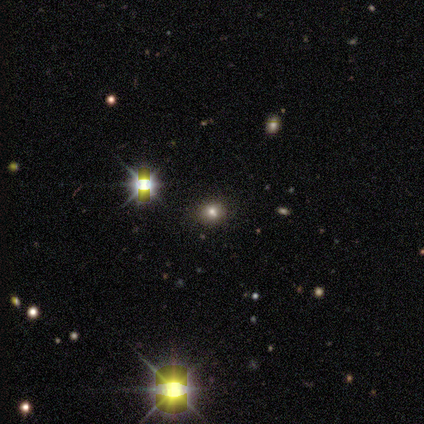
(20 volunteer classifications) Smooth or featured: star or artifact — 45% (smooth — 30%)